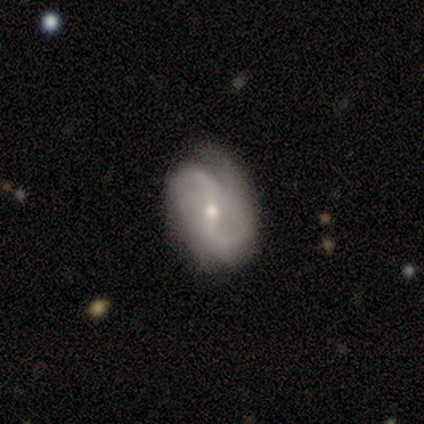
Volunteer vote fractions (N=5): Overall: smooth (40%, tied with featured or disk). How rounded: in between (100%). Merging: none (50%; minor disturbance 25%).